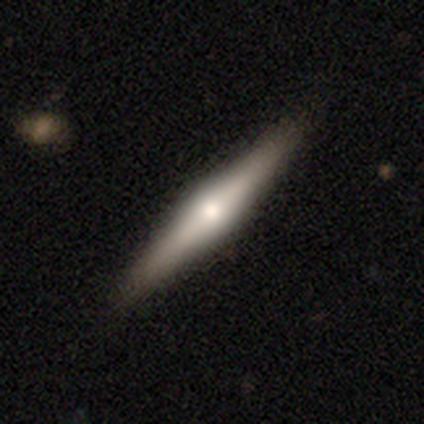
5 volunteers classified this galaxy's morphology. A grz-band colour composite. It shows a featured or disk galaxy (80%) viewed edge-on (100%) with a rounded central bulge (100%). Merging: none (100%).